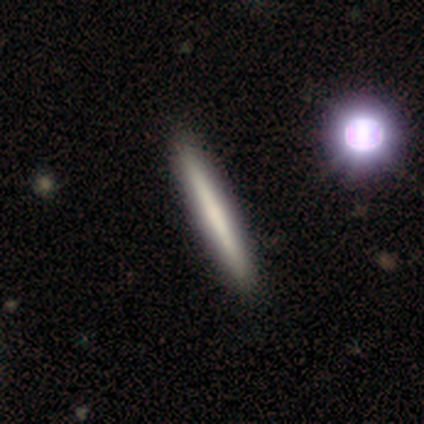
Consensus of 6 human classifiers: Smooth or featured? smooth (50%, tied with featured or disk)
How rounded? cigar-shaped (100%)
Merging? none (100%)